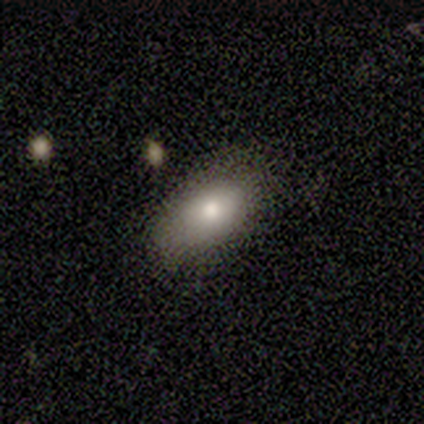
Smooth or featured?
  - smooth: 100% *
  - featured or disk: 0%
  - star or artifact: 0%
How rounded?
  - in between: 100% *
  - round: 0%
  - cigar-shaped: 0%
Merging?
  - major disturbance: 100% *
  - none: 0%
  - minor disturbance: 0%
  - merger: 0%